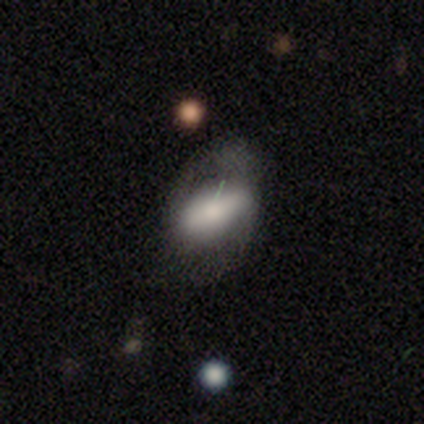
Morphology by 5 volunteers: Volunteers were most divided on "bar" (2-way tie): strong: 50%, no: 50%, weak: 0%; "spiral arms" (2-way tie): yes: 50%, no: 50%; "bulge size" (2-way tie): large: 50%, moderate: 50%, dominant: 0%, small: 0%, none: 0%. More confident: spiral winding — loose (100%); spiral arm count — 2 (100%); merging — major disturbance (80%); edge-on disk — no (67%); smooth or featured — featured or disk (60%).